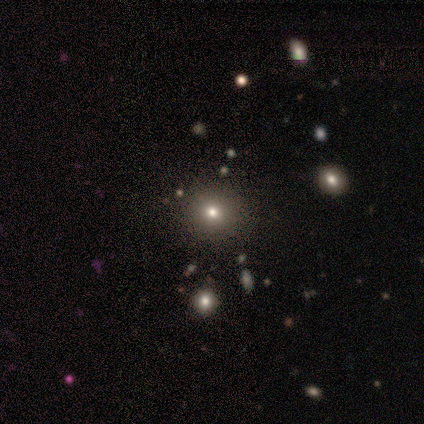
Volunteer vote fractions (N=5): A featured or disk galaxy (60%) with no bar (100%), no spiral arms (100%) and a moderate central bulge (67%).

Vote fractions:
- Smooth or featured? featured or disk: 60% / smooth: 40% / star or artifact: 0%
- Edge-on disk? no: 100% / yes: 0%
- Bar? no: 100% / strong: 0% / weak: 0%
- Spiral arms? no: 100% / yes: 0%
- Bulge size? moderate: 67% / large: 33% / dominant: 0% / small: 0% / none: 0%
- Merging? none: 80% / merger: 20% / minor disturbance: 0% / major disturbance: 0%